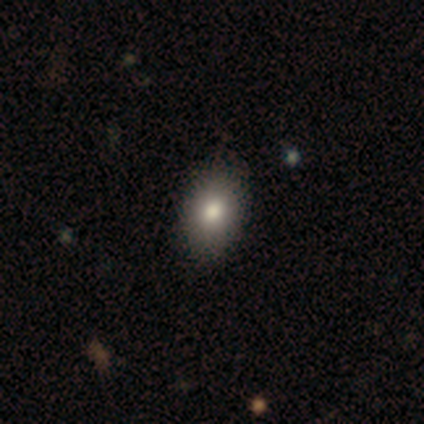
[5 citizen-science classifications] smooth-or-featured: smooth: 80% | star or artifact: 20% | featured or disk: 0%
  how-rounded: in between: 100% | round: 0% | cigar-shaped: 0%
  merging: none: 75% | minor disturbance: 25% | major disturbance: 0% | merger: 0%